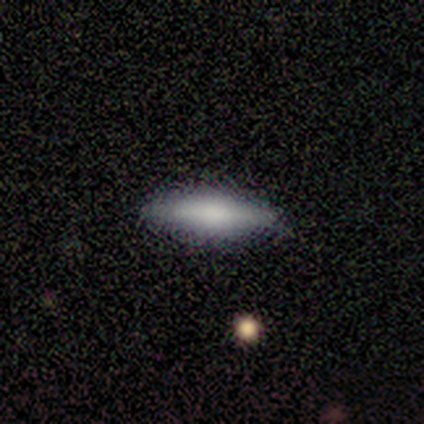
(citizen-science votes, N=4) Morphology: type=smooth (75%); roundness=cigar-shaped (100%); merging=none (50%, tied with minor disturbance).